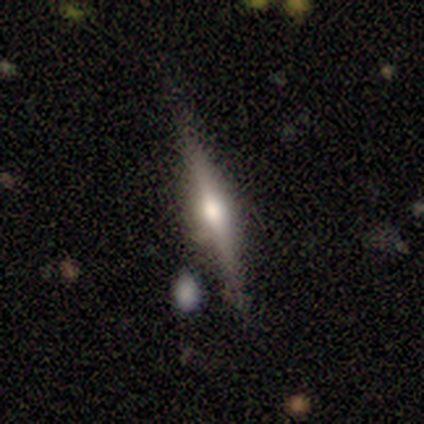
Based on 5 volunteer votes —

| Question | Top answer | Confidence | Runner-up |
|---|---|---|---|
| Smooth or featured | featured or disk | 80% | smooth (20%) |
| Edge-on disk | yes | 100% | — |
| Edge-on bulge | rounded | 100% | — |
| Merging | none | 80% | minor disturbance (20%) |